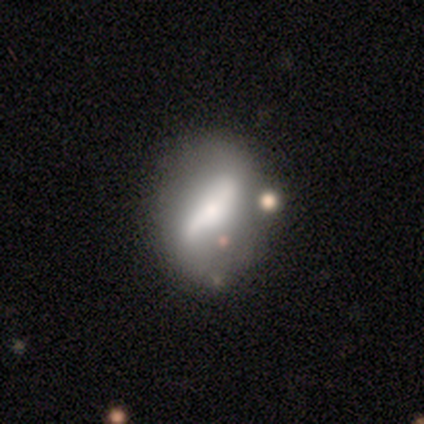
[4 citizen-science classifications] Volunteers were most divided on "smooth or featured" (2-way tie): smooth: 50%, featured or disk: 50%, star or artifact: 0%. More confident: how rounded — in between (100%); merging — none (100%).